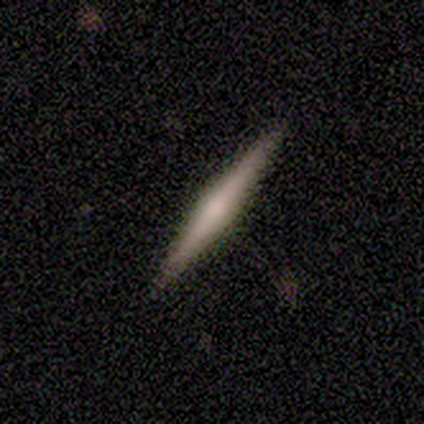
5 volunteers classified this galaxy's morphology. A featured or disk galaxy (100%) viewed edge-on (100%) with a rounded central bulge (60%).

Vote fractions:
- Smooth or featured? featured or disk: 100% / smooth: 0% / star or artifact: 0%
- Edge-on disk? yes: 100% / no: 0%
- Edge-on bulge? rounded: 60% / none: 40% / boxy: 0%
- Merging? none: 60% / minor disturbance: 20% / merger: 20% / major disturbance: 0%